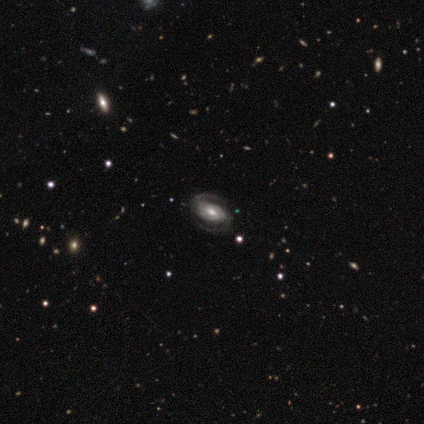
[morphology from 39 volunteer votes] This appears to be a featured or disk galaxy (90%) with a weak bar (46%, tied with no), 2 (97%) tight (45%, tied with medium) spiral arms (94%) and a moderate central bulge (69%). Merging: none (89%).